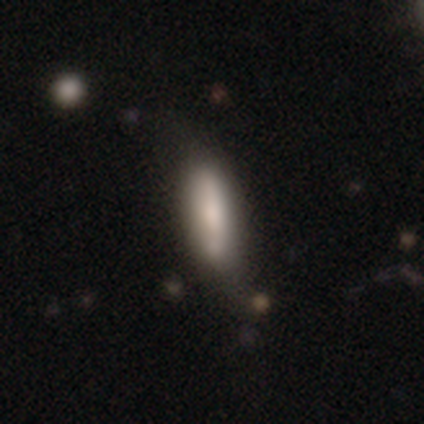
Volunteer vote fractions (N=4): smooth-or-featured: featured or disk: 75% | smooth: 25% | star or artifact: 0%
  disk-edge-on: no: 100% | yes: 0%
    bar: no: 67% | weak: 33% | strong: 0%
    has-spiral-arms: yes: 67% | no: 33%
      spiral-winding: tight: 50% (tied) | loose: 50% (tied) | medium: 0%
      spiral-arm-count: can't tell: 100% | 1: 0% | 2: 0% | 3: 0% | 4: 0% | more than 4: 0%
    bulge-size: small: 67% | large: 33% | dominant: 0% | moderate: 0% | none: 0%
  merging: none: 100% | minor disturbance: 0% | major disturbance: 0% | merger: 0%